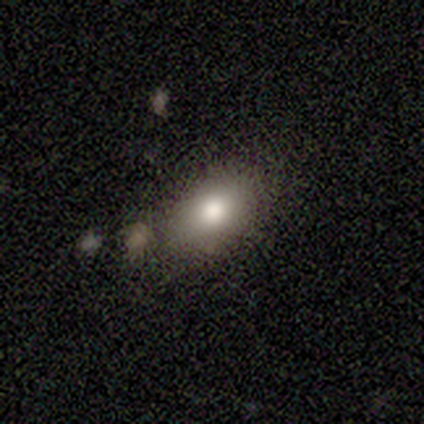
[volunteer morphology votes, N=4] smooth-or-featured: smooth: 75% | star or artifact: 25% | featured or disk: 0%
  how-rounded: in between: 67% | round: 33% | cigar-shaped: 0%
  merging: none: 100% | minor disturbance: 0% | major disturbance: 0% | merger: 0%